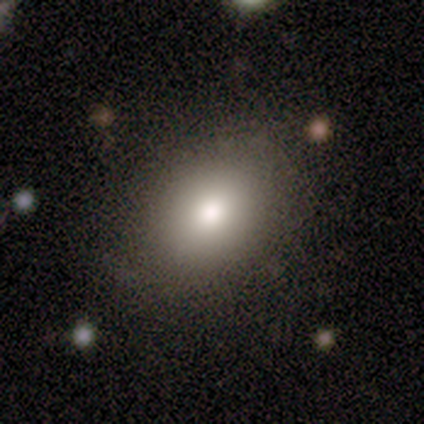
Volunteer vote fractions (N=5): smooth_or_featured: smooth (p=0.80) [alt: featured or disk p=0.20]
how_rounded: in between (p=0.75) [alt: round p=0.25]
merging: none (p=0.80) [alt: minor disturbance p=0.20]